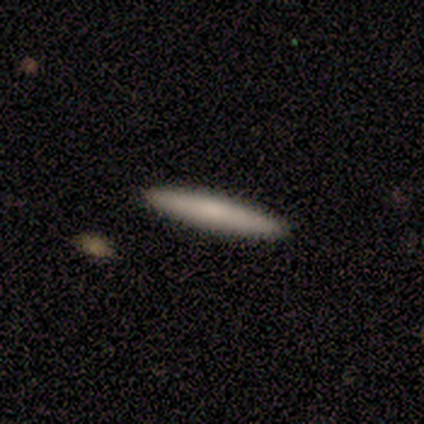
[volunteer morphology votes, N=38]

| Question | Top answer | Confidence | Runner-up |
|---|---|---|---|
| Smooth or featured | smooth | 74% | featured or disk (26%) |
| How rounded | cigar-shaped | 93% | round (4%) |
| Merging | none | 97% | major disturbance (3%) |